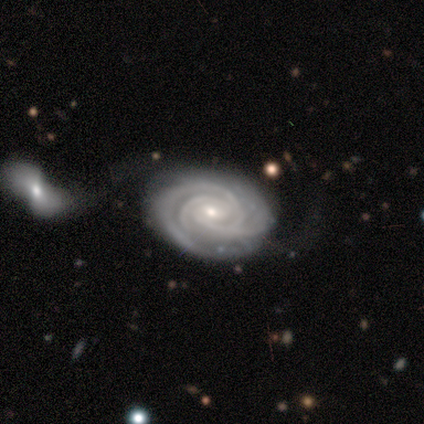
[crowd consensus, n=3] smooth-or-featured: featured or disk: 67% | smooth: 33% | star or artifact: 0%
  disk-edge-on: no: 100% | yes: 0%
    bar: weak: 100% | strong: 0% | no: 0%
    has-spiral-arms: yes: 100% | no: 0%
      spiral-winding: tight: 100% | medium: 0% | loose: 0%
      spiral-arm-count: 3: 100% | 1: 0% | 2: 0% | 4: 0% | more than 4: 0% | can't tell: 0%
    bulge-size: small: 100% | dominant: 0% | large: 0% | moderate: 0% | none: 0%
  merging: none: 33% (tied) | minor disturbance: 33% (tied) | major disturbance: 33% (tied) | merger: 0%